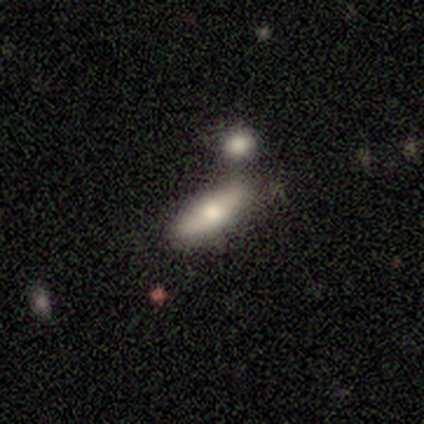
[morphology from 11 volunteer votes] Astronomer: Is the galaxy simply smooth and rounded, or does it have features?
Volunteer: smooth — 64%.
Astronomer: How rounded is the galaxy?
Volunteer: in between — 71%.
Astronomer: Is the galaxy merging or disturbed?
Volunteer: none — 70%.